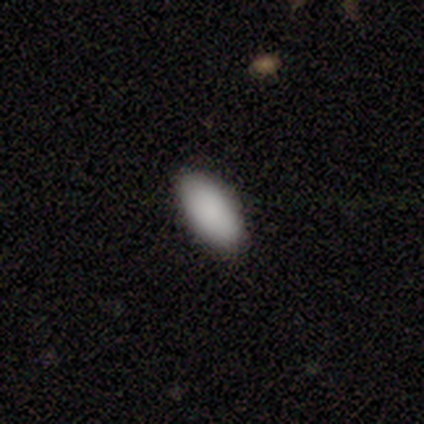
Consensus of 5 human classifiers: A smooth galaxy with no disk features (80%) that is in between round and cigar-shaped (100%). Merging: none (100%).